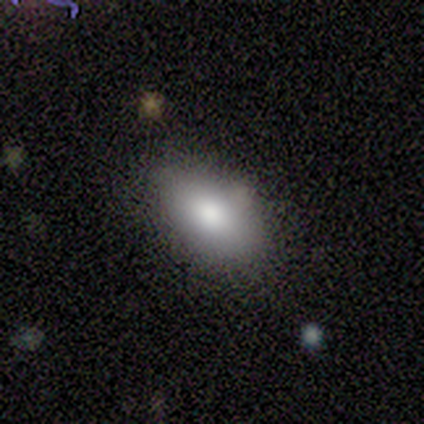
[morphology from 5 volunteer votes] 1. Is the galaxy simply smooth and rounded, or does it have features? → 100% smooth, 0% featured or disk, 0% star or artifact.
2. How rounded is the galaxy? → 100% in between, 0% round, 0% cigar-shaped.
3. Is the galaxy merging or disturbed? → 100% none, 0% minor disturbance, 0% major disturbance, 0% merger.